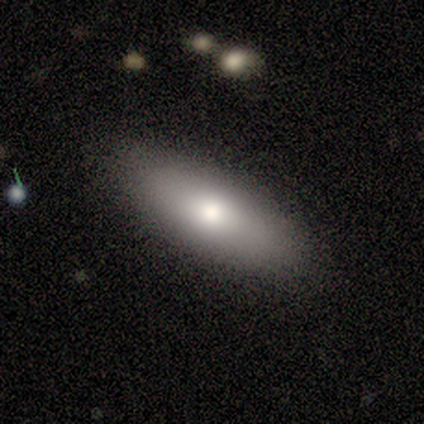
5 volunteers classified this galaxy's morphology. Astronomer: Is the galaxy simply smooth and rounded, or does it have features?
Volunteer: smooth — 100%.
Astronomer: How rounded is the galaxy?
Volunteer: in between — 100%.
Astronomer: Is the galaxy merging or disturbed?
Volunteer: none — 80%.